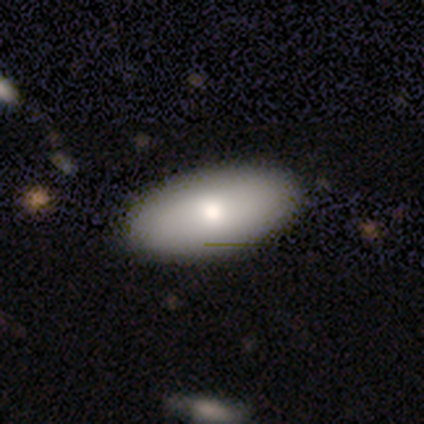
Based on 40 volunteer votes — Smooth or featured: smooth — 82% (featured or disk — 18%)
How rounded: in between — 94% (round — 3%)
Merging: none — 65% (minor disturbance — 5%)